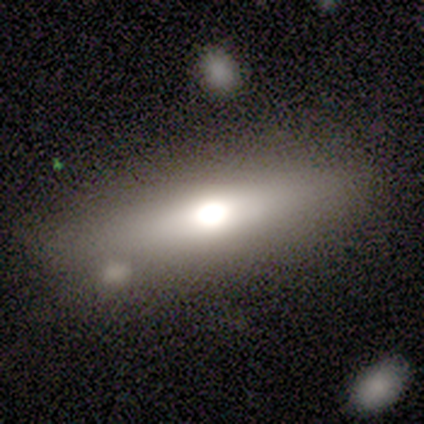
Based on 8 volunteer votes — Smooth or featured? featured or disk (75%)
Edge-on disk? no (67%)
Bar? no (100%)
Spiral arms? no (100%)
Bulge size? large (75%)
Merging? none (88%)